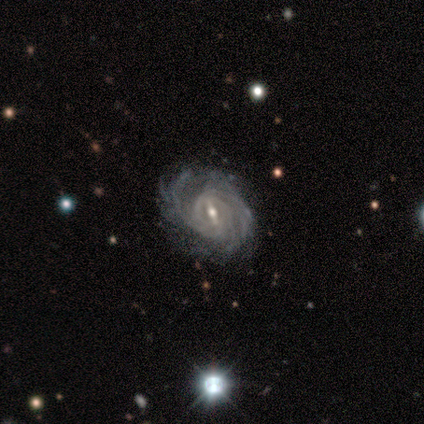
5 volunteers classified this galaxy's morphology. Smooth or featured? 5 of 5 (100%) said featured or disk. Edge-on disk? 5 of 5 (100%) said no. Bar? 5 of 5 (100%) said strong. Spiral arms? 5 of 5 (100%) said yes. Spiral winding? 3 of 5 (60%) said medium. Spiral arm count? 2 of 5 (40%) said can't tell. Bulge size? 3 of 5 (60%) said small. Merging? 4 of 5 (80%) said none.